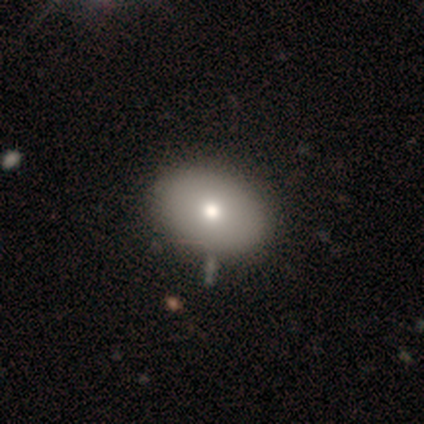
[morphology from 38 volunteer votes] A smooth galaxy with no disk features (74%) that is in between round and cigar-shaped (79%). Merging: none (69%).